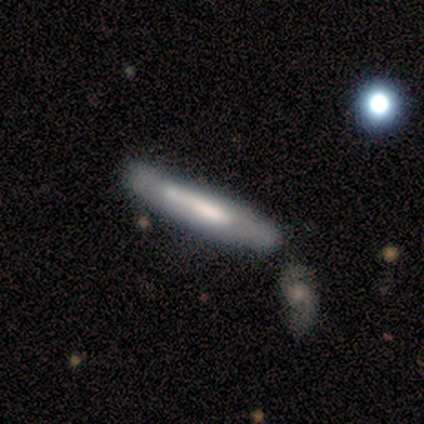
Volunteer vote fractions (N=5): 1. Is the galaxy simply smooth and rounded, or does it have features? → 60% featured or disk, 40% smooth, 0% star or artifact.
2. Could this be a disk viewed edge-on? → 100% yes, 0% no.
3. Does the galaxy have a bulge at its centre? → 67% none, 33% rounded, 0% boxy.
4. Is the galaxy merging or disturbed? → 80% none, 20% merger, 0% minor disturbance, 0% major disturbance.